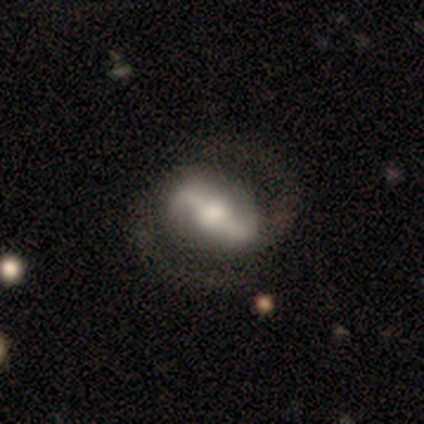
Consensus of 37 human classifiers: Smooth or featured: featured or disk — 89% (smooth — 5%)
Edge-on disk: no — 76% (yes — 24%)
Bar: strong — 72% (weak — 24%)
Spiral arms: yes — 88% (no — 12%)
Spiral winding: medium — 59% (loose — 27%)
Spiral arm count: 2 — 100%
Bulge size: moderate — 44% (large — 32%)
Merging: none — 66% (major disturbance — 17%)